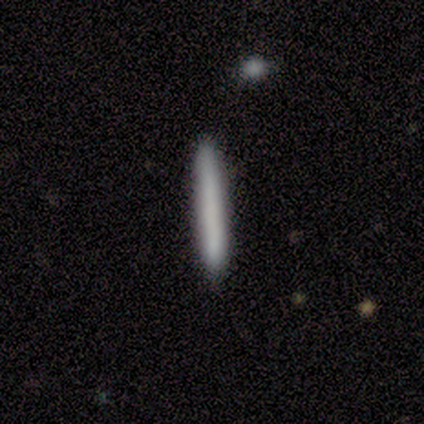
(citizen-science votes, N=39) A smooth galaxy with no disk features (79%) that is cigar-shaped (100%). Merging: none (67%).